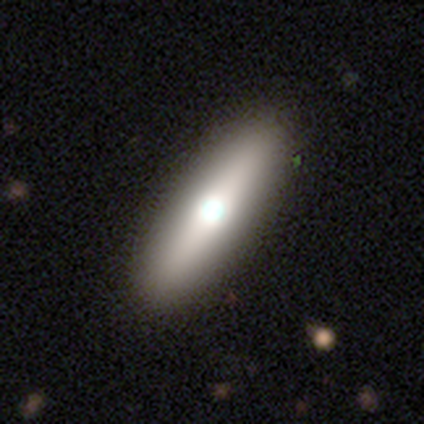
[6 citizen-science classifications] Smooth or featured? 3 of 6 (50%) said smooth. How rounded? 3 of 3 (100%) said cigar-shaped. Merging? 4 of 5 (80%) said none.